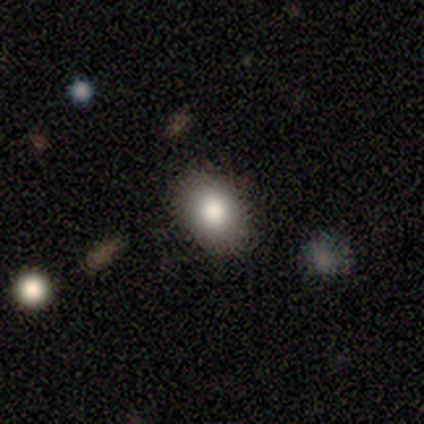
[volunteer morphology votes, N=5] Q: Smooth or featured?
A: featured or disk (40%); tied with: star or artifact (40%)
Q: Edge-on disk?
A: no (100%)
Q: Bar?
A: no (100%)
Q: Spiral arms?
A: no (100%)
Q: Bulge size?
A: large (50%); tied with: moderate (50%)
Q: Merging?
A: none (100%)